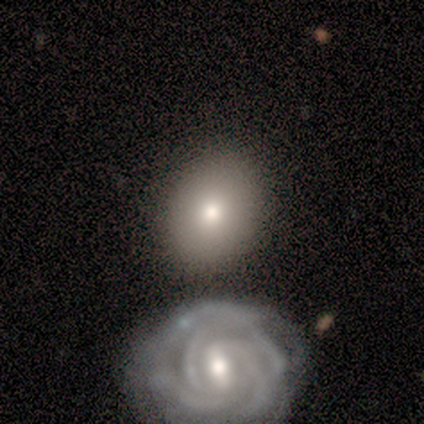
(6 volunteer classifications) This is likely a smooth galaxy (67%). How rounded: clearly in between (100%). Merging: clearly none (80%).